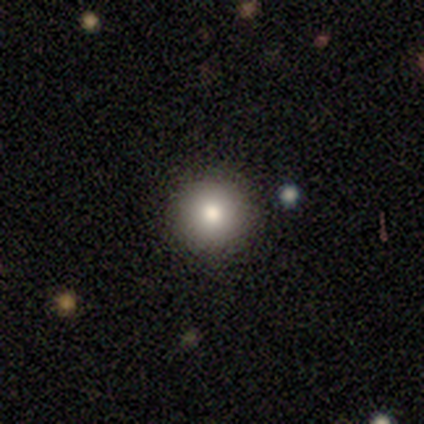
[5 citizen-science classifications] smooth-or-featured: smooth: 100% | featured or disk: 0% | star or artifact: 0%
  how-rounded: round: 100% | in between: 0% | cigar-shaped: 0%
  merging: none: 100% | minor disturbance: 0% | major disturbance: 0% | merger: 0%